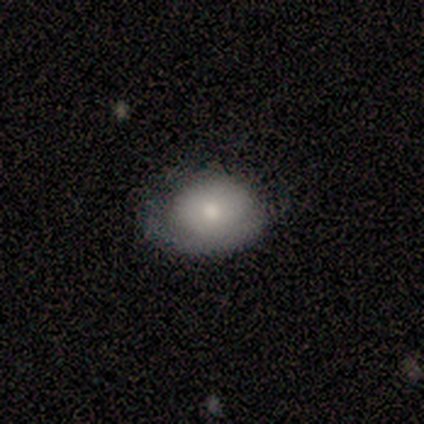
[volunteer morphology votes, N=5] Volunteers were most divided on "smooth or featured": smooth: 60%, star or artifact: 40%, featured or disk: 0%. More confident: how rounded — in between (67%); merging — none (67%).